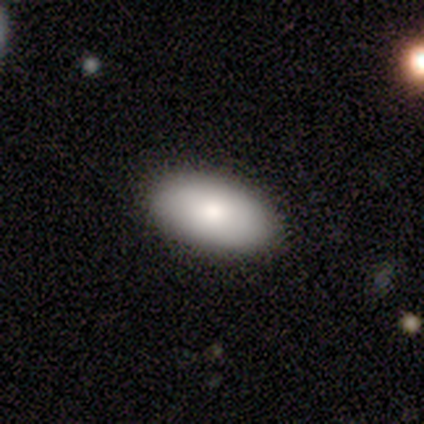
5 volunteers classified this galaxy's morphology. smooth_or_featured: smooth (p=0.80) [alt: featured or disk p=0.20]
how_rounded: in between (p=1.00)
merging: none (p=1.00)